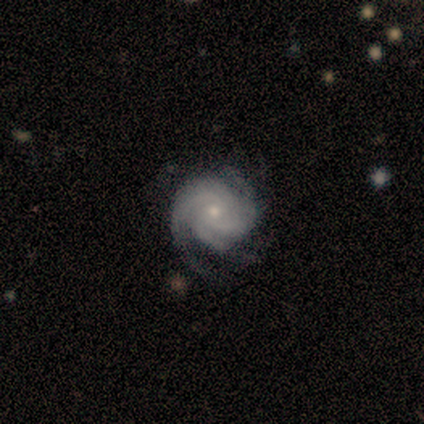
smooth-or-featured: featured or disk: 100% | smooth: 0% | star or artifact: 0%
  disk-edge-on: no: 80% | yes: 20%
    bar: weak: 50% (tied) | no: 50% (tied) | strong: 0%
    has-spiral-arms: yes: 100% | no: 0%
      spiral-winding: tight: 75% | medium: 25% | loose: 0%
      spiral-arm-count: 3: 50% | 4: 25% | more than 4: 25% | 1: 0% | 2: 0% | can't tell: 0%
    bulge-size: small: 100% | dominant: 0% | large: 0% | moderate: 0% | none: 0%
  merging: none: 40% (tied) | minor disturbance: 40% (tied) | merger: 20% | major disturbance: 0%